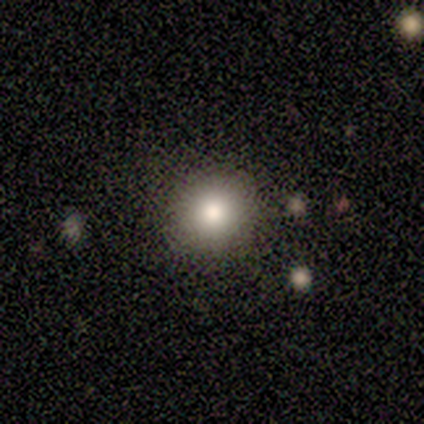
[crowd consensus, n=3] smooth_or_featured: smooth (p=1.00)
how_rounded: round (p=1.00)
merging: none (p=1.00)